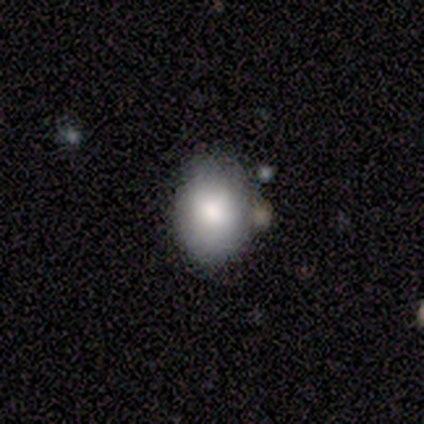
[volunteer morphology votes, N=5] This is clearly a smooth galaxy (80%). How rounded: clearly in between (100%). Merging: marginally none (25%, tied with minor disturbance, major disturbance and merger).